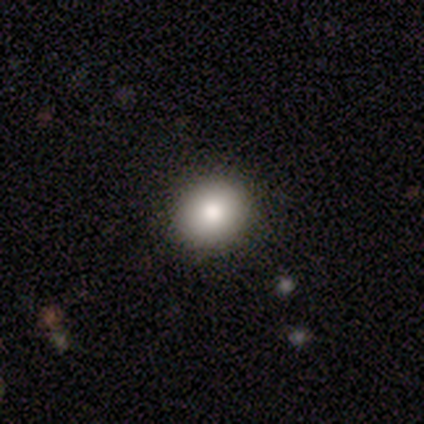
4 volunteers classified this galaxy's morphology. This appears to be a smooth galaxy with no disk features (100%) that is round (100%). Merging: none (100%).